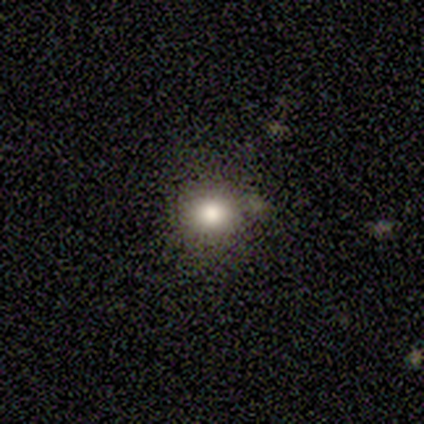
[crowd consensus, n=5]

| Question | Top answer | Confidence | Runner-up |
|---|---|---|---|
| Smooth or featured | smooth | 100% | — |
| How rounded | round | 80% | in between (20%) |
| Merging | none | 60% | minor disturbance (20%) |